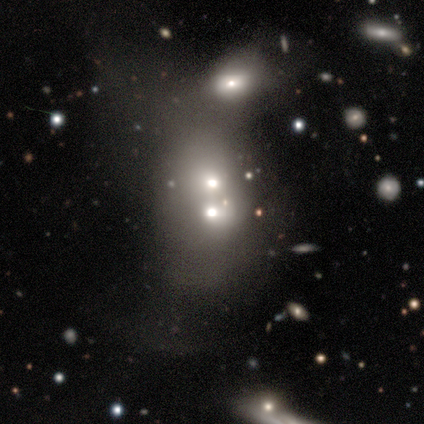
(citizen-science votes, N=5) A smooth galaxy with no disk features (80%) that is round (50%, tied with in between).

Vote fractions:
- Smooth or featured? smooth: 80% / star or artifact: 20% / featured or disk: 0%
- How rounded? round: 50% (tied) / in between: 50% (tied) / cigar-shaped: 0%
- Merging? merger: 100% / none: 0% / minor disturbance: 0% / major disturbance: 0%